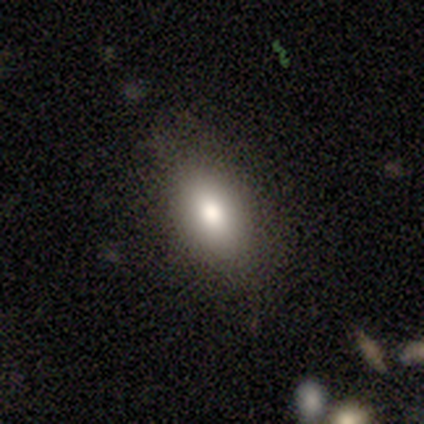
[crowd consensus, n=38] This appears to be a smooth galaxy with no disk features (71%) that is in between round and cigar-shaped (81%). Merging: none (81%).